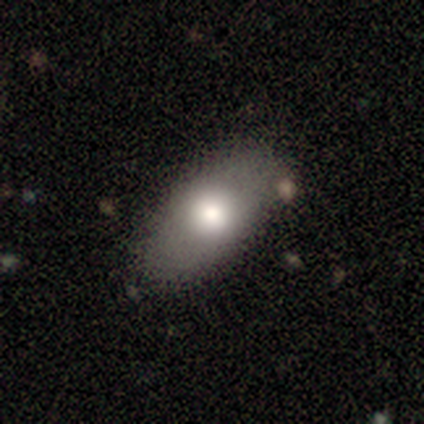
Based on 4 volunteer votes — Overall: smooth (75%). How rounded: in between (67%; cigar-shaped 33%). Merging: none (100%).